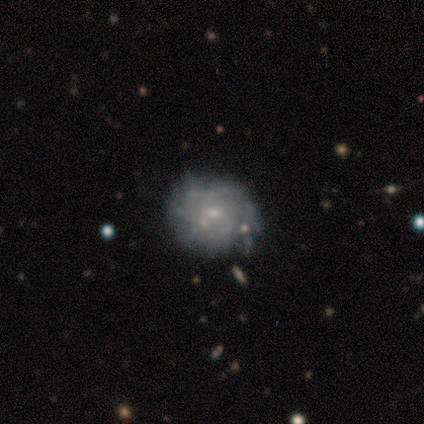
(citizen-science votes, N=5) smooth-or-featured: featured or disk: 60% | smooth: 40% | star or artifact: 0%
  disk-edge-on: no: 100% | yes: 0%
    bar: no: 100% | strong: 0% | weak: 0%
    has-spiral-arms: yes: 67% | no: 33%
      spiral-winding: tight: 50% (tied) | medium: 50% (tied) | loose: 0%
      spiral-arm-count: can't tell: 100% | 1: 0% | 2: 0% | 3: 0% | 4: 0% | more than 4: 0%
    bulge-size: small: 100% | dominant: 0% | large: 0% | moderate: 0% | none: 0%
  merging: none: 80% | minor disturbance: 20% | major disturbance: 0% | merger: 0%